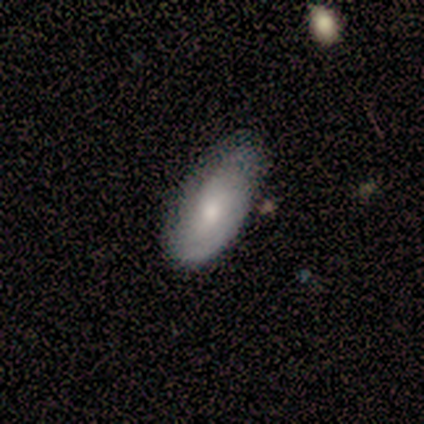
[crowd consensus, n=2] Smooth or featured: smooth — 50% (tied with featured or disk — 50%)
How rounded: in between — 100%
Merging: none — 50% (tied with minor disturbance — 50%)